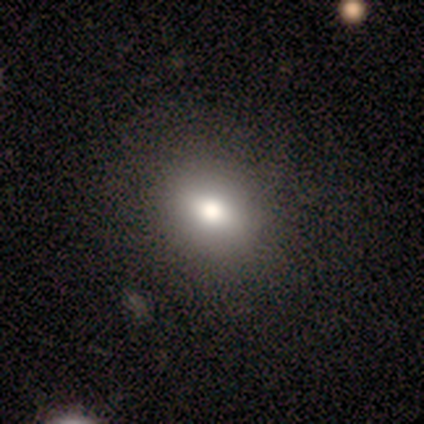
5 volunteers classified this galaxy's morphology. This is likely a smooth galaxy (60%). How rounded: likely round (67%). Merging: clearly none (100%).